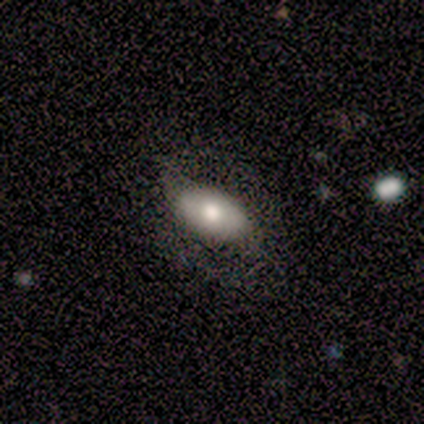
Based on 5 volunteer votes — Smooth or featured?
  - smooth: 100% *
  - featured or disk: 0%
  - star or artifact: 0%
How rounded?
  - in between: 100% *
  - round: 0%
  - cigar-shaped: 0%
Merging?
  - none: 80% *
  - minor disturbance: 20%
  - major disturbance: 0%
  - merger: 0%